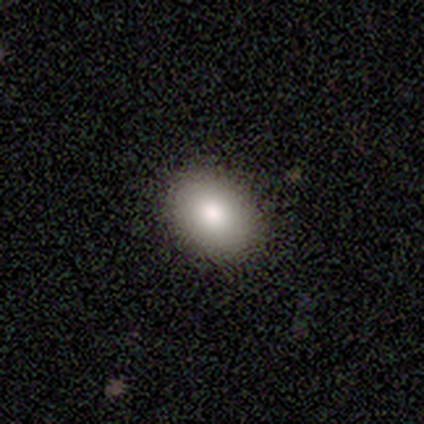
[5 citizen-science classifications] A smooth galaxy with no disk features (60%) that is in between round and cigar-shaped (67%).

Vote fractions:
- Smooth or featured? smooth: 60% / featured or disk: 20% / star or artifact: 20%
- How rounded? in between: 67% / round: 33% / cigar-shaped: 0%
- Merging? none: 100% / minor disturbance: 0% / major disturbance: 0% / merger: 0%